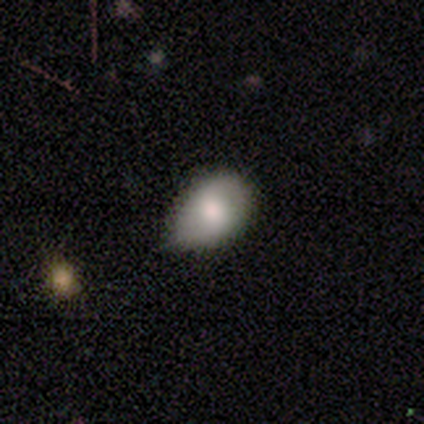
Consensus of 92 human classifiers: smooth_or_featured: smooth (p=0.83) [alt: featured or disk p=0.13]
how_rounded: in between (p=0.76) [alt: round p=0.21]
merging: minor disturbance (p=0.57) [alt: none p=0.35]